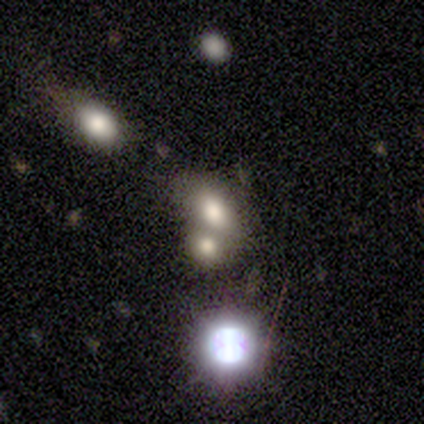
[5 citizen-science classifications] smooth-or-featured: smooth: 60% | star or artifact: 40% | featured or disk: 0%
  how-rounded: in between: 67% | round: 33% | cigar-shaped: 0%
  merging: none: 67% | merger: 33% | minor disturbance: 0% | major disturbance: 0%